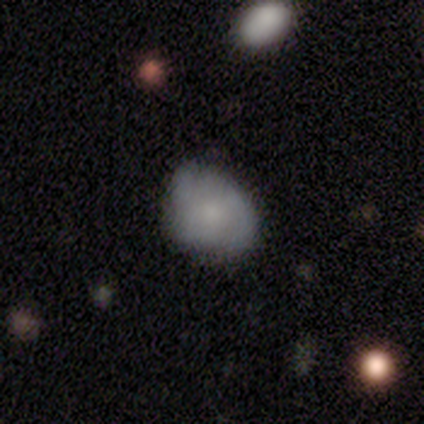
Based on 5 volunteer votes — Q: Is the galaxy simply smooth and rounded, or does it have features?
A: featured or disk — 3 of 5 (60%).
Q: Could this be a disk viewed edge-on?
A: no — 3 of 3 (100%).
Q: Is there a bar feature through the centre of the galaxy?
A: strong — 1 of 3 (33%, tied with weak and no).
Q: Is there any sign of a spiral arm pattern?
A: yes — 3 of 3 (100%).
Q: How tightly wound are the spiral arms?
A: tight — 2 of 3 (67%).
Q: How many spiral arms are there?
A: can't tell — 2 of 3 (67%).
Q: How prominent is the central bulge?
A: small — 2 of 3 (67%).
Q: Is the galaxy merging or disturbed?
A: none — 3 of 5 (60%).